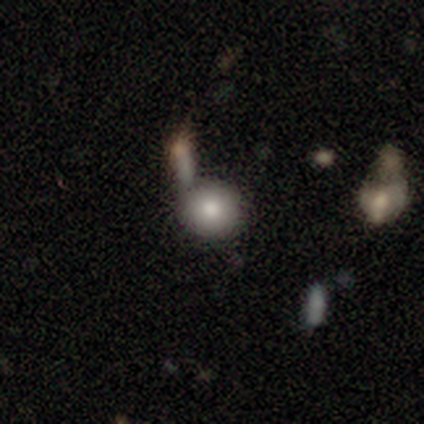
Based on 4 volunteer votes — Volunteers were most divided on "merging": major disturbance: 50%, none: 25%, minor disturbance: 25%, merger: 0%. More confident: how rounded — round (100%); smooth or featured — smooth (75%).